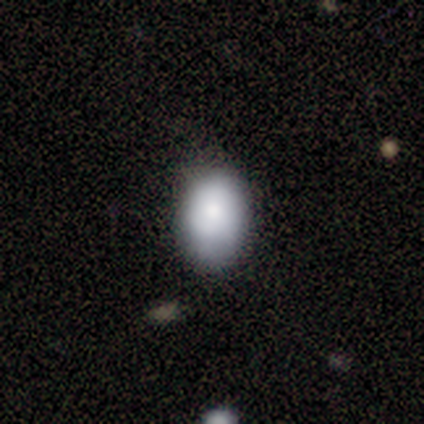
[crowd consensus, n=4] Smooth or featured? 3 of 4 (75%) said smooth. How rounded? 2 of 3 (67%) said in between. Merging? 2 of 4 (50%, tied with minor disturbance) said none.